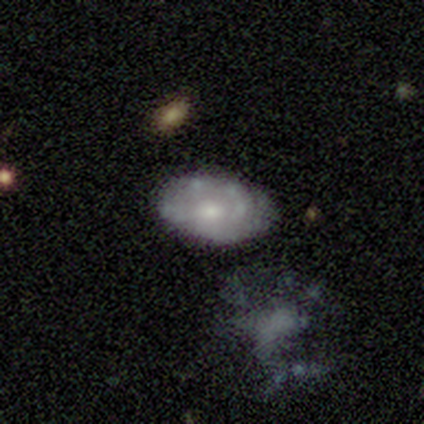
smooth 60%, featured or disk 40%, star or artifact 0%. Down the decision tree: how rounded — in between (100%); merging — none (60%).